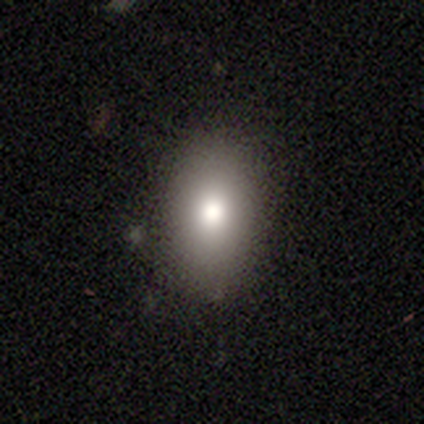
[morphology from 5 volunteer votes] type=smooth (80%); roundness=in between (100%); merging=none (50%, tied with minor disturbance).